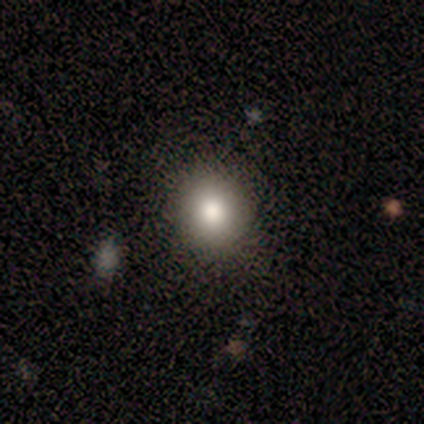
Smooth or featured? smooth (100%)
How rounded? in between (60%)
Merging? none (80%)